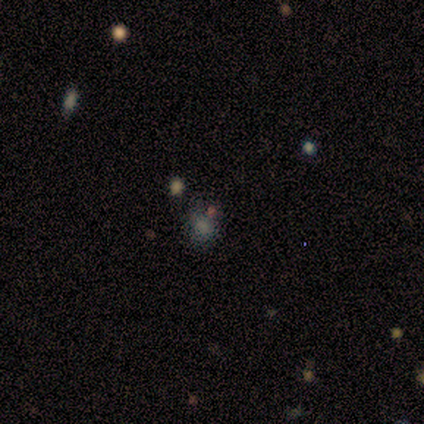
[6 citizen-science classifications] Smooth or featured? 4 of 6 (67%) said smooth. How rounded? 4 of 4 (100%) said round. Merging? 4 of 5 (80%) said none.